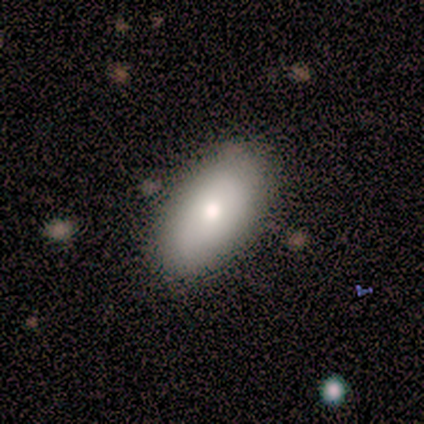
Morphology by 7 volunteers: This is possibly a smooth galaxy (57%). How rounded: clearly in between (100%). Merging: likely none (71%).